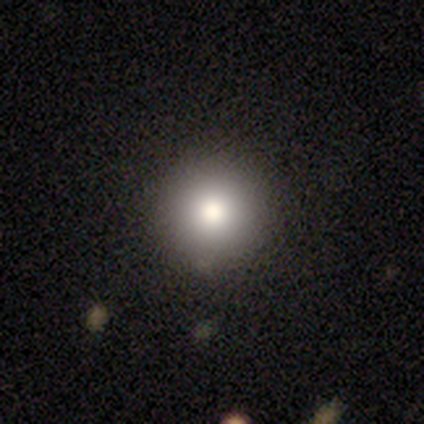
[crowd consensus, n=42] This is clearly a smooth galaxy (83%). How rounded: clearly round (97%). Merging: clearly none (90%).